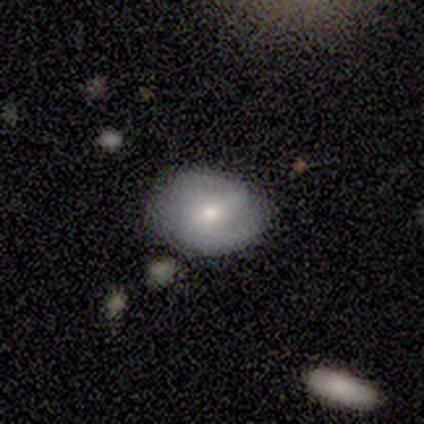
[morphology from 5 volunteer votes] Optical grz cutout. It shows a featured or disk galaxy (60%) with a strong bar (33%, tied with weak and no), 1 (33%, tied with 2 and 3) tight (33%, tied with medium and loose) spiral arms (100%) and a large central bulge (33%, tied with moderate and small). Merging: none (80%).